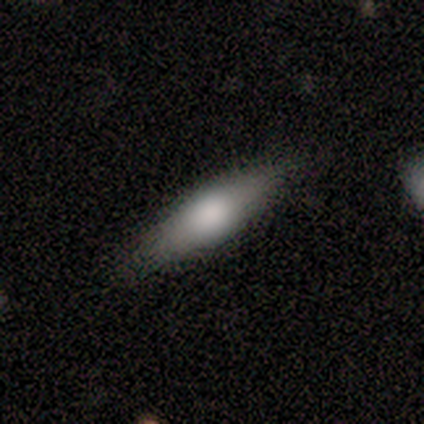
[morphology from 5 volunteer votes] Smooth or featured?
  - smooth: 80% *
  - featured or disk: 20%
  - star or artifact: 0%
How rounded?
  - cigar-shaped: 75% *
  - in between: 25%
  - round: 0%
Merging?
  - none: 100% *
  - minor disturbance: 0%
  - major disturbance: 0%
  - merger: 0%